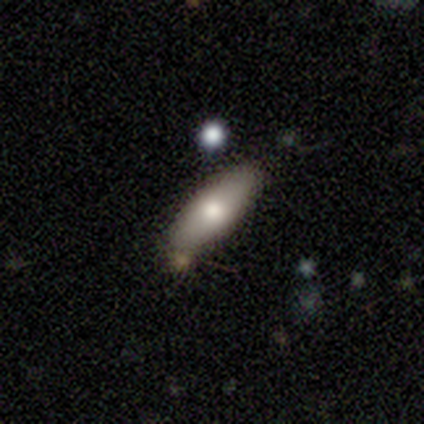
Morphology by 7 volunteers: A smooth galaxy with no disk features (86%) that is in between round and cigar-shaped (83%). Merging: none (100%).